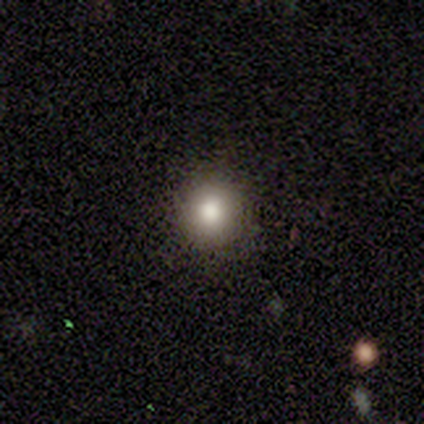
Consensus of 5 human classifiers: Smooth or featured? 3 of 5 (60%) said smooth. How rounded? 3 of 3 (100%) said round. Merging? 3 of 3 (100%) said none.